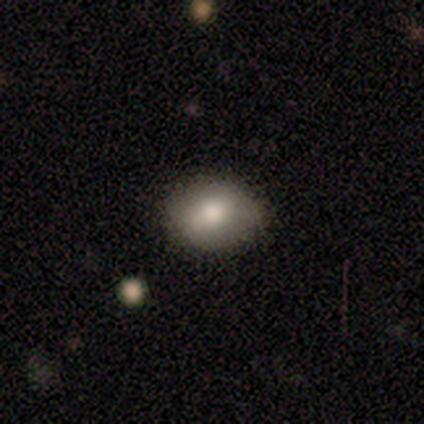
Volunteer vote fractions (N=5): Smooth or featured: smooth — 60% (featured or disk — 20%)
How rounded: in between — 100%
Merging: none — 100%